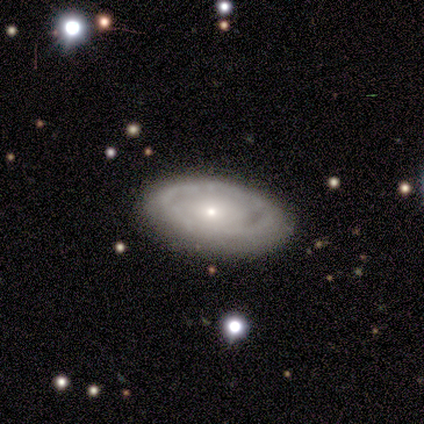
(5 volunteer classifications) Smooth or featured: featured or disk — 60% (smooth — 20%)
Edge-on disk: no — 100%
Bar: no — 67% (weak — 33%)
Spiral arms: no — 67% (yes — 33%)
Bulge size: small — 100%
Merging: none — 100%